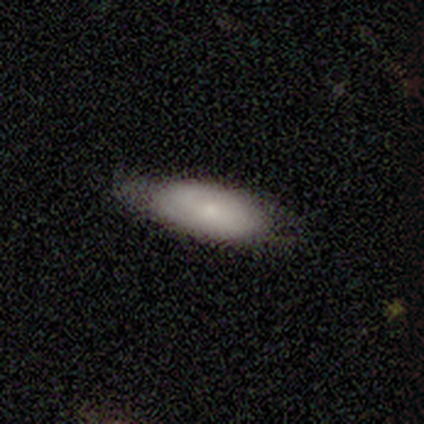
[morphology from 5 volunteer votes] smooth 60%, featured or disk 40%, star or artifact 0%. Down the decision tree: how rounded — in between (67%); merging — none (80%).